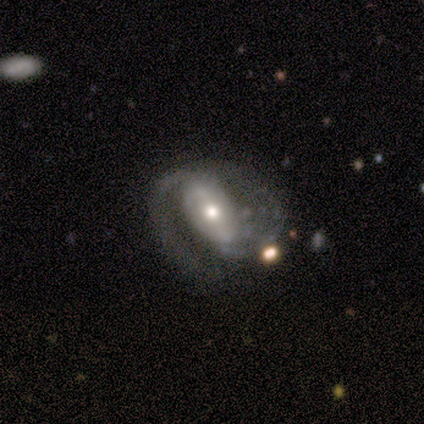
Smooth or featured?
  - featured or disk: 100% *
  - smooth: 0%
  - star or artifact: 0%
Edge-on disk?
  - no: 92% *
  - yes: 8%
Bar?
  - no: 45% *
  - weak: 36%
  - strong: 18%
Spiral arms?
  - yes: 91% *
  - no: 9%
Spiral winding?
  - medium: 70% *
  - tight: 20%
  - loose: 10%
Spiral arm count?
  - 2: 70% *
  - 1: 20%
  - can't tell: 10%
  - 3: 0%
  - 4: 0%
  - more than 4: 0%
Bulge size?
  - moderate: 55% *
  - small: 27%
  - large: 18%
  - dominant: 0%
  - none: 0%
Merging?
  - none: 58% *
  - minor disturbance: 17%
  - major disturbance: 17%
  - merger: 8%